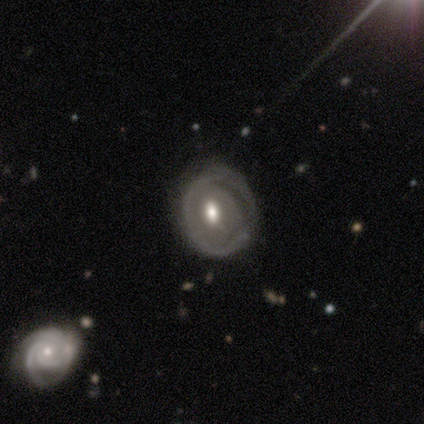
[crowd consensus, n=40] Smooth or featured? featured or disk (75%)
Edge-on disk? no (100%)
Bar? no (63%)
Spiral arms? no (63%)
Bulge size? moderate (87%)
Merging? none (50%)